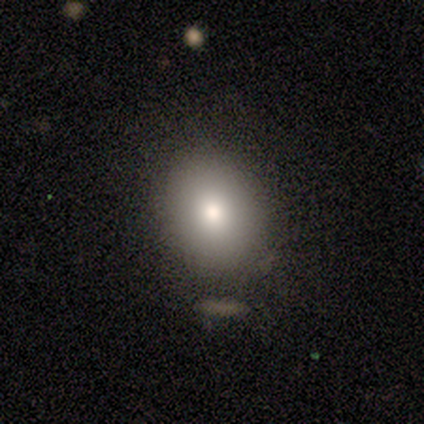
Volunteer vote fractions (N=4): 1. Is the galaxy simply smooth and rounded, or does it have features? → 100% smooth, 0% featured or disk, 0% star or artifact.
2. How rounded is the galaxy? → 75% round, 25% in between, 0% cigar-shaped.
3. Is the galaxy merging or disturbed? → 100% none, 0% minor disturbance, 0% major disturbance, 0% merger.